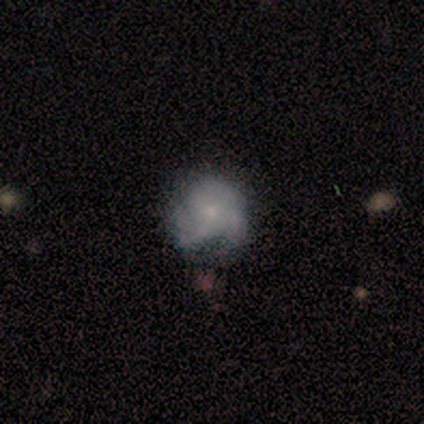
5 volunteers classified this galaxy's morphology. This appears to be a smooth galaxy with no disk features (40%, tied with featured or disk) that is round (100%). Merging: minor disturbance (75%).